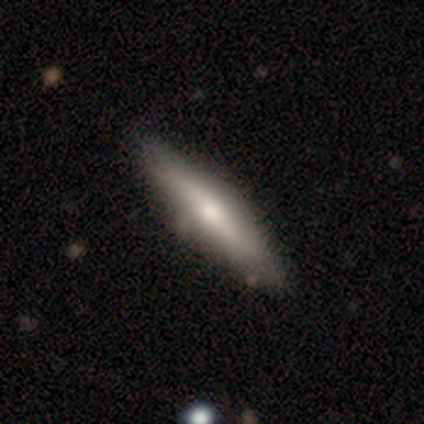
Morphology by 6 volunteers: Q: Smooth or featured?
A: featured or disk (67%); runner-up: smooth (33%)
Q: Edge-on disk?
A: yes (100%)
Q: Edge-on bulge?
A: rounded (100%)
Q: Merging?
A: none (83%); runner-up: minor disturbance (17%)